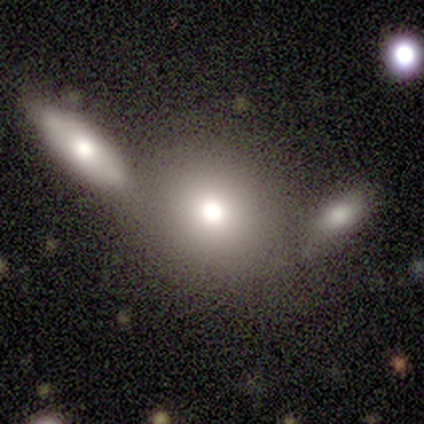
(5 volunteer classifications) Smooth or featured: smooth — 80% (featured or disk — 20%)
How rounded: round — 100%
Merging: none — 80% (merger — 20%)